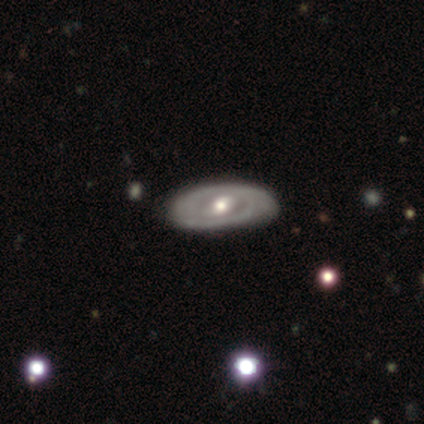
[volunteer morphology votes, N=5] Smooth or featured? featured or disk (100%)
Edge-on disk? no (100%)
Bar? weak (40%, tied with no)
Spiral arms? yes (60%)
Spiral winding? tight (33%, tied with medium and loose)
Spiral arm count? 1 (33%, tied with 4 and can't tell)
Bulge size? moderate (80%)
Merging? none (100%)